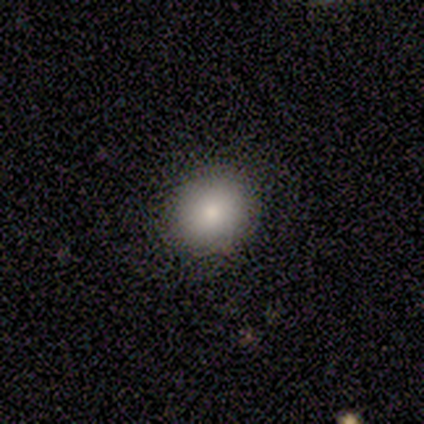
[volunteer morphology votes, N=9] smooth 78%, star or artifact 22%, featured or disk 0%. Down the decision tree: how rounded — round (71%); merging — none (100%).